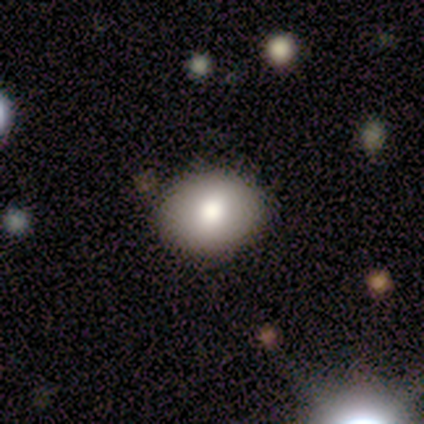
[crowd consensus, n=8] Smooth or featured? 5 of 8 (62%) said smooth. How rounded? 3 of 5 (60%) said in between. Merging? 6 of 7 (86%) said none.